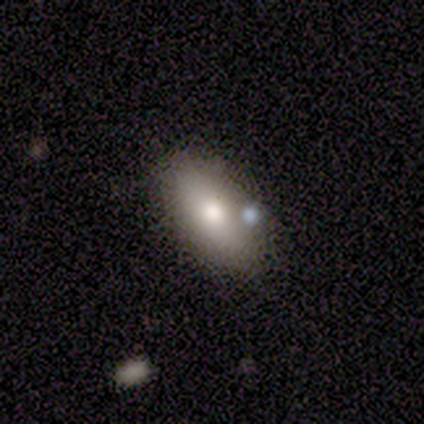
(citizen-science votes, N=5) Smooth or featured? 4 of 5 (80%) said smooth. How rounded? 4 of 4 (100%) said in between. Merging? 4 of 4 (100%) said none.